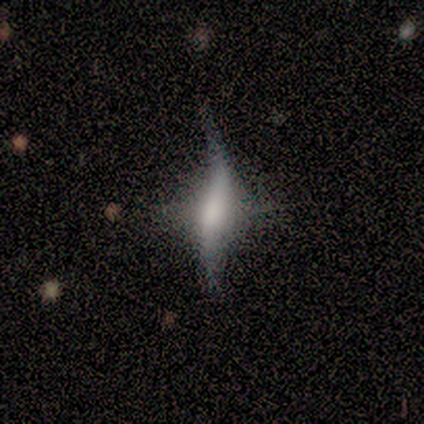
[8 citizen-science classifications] This appears to be a featured or disk galaxy (62%) with a strong bar (50%), 1 (67%) loose (100%) spiral arms (75%) and a small central bulge (75%). Merging: none (71%).